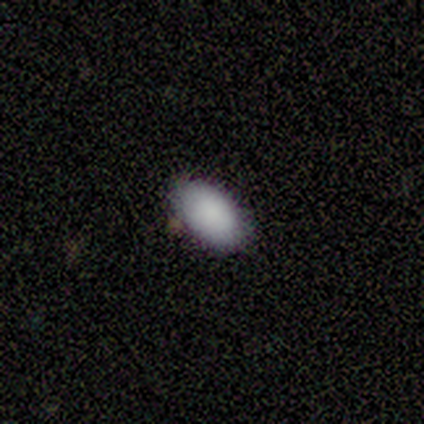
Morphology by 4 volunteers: Smooth or featured? 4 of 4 (100%) said smooth. How rounded? 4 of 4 (100%) said in between. Merging? 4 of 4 (100%) said none.